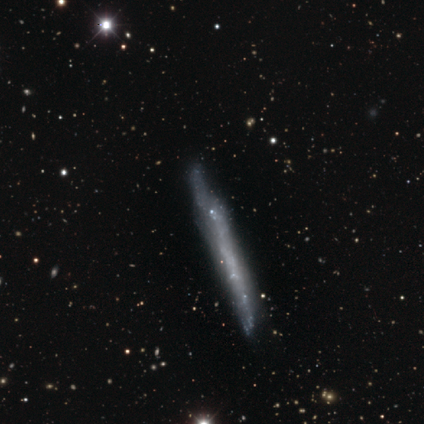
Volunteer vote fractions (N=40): This is likely a featured or disk galaxy (72%). It is likely viewed edge-on (72%). Edge-on bulge: clearly none (100%). Merging: possibly none (45%).